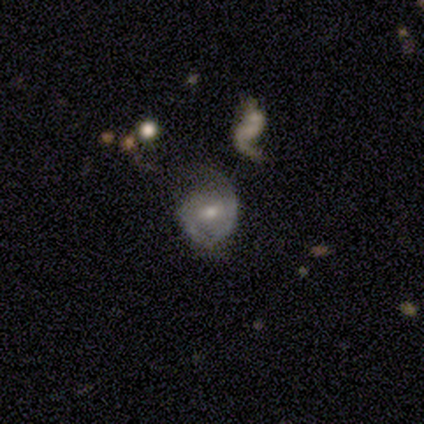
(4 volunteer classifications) A featured or disk galaxy (75%) with a weak bar (67%), no spiral arms (67%) and a small central bulge (67%).

Vote fractions:
- Smooth or featured? featured or disk: 75% / smooth: 25% / star or artifact: 0%
- Edge-on disk? no: 100% / yes: 0%
- Bar? weak: 67% / no: 33% / strong: 0%
- Spiral arms? no: 67% / yes: 33%
- Bulge size? small: 67% / moderate: 33% / dominant: 0% / large: 0% / none: 0%
- Merging? major disturbance: 50% / none: 25% / minor disturbance: 25% / merger: 0%